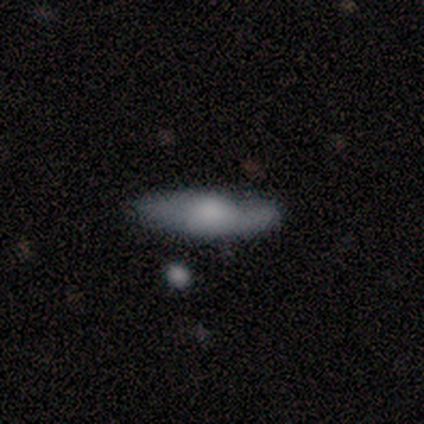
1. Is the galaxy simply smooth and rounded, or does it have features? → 60% smooth, 40% featured or disk, 0% star or artifact.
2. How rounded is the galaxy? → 67% cigar-shaped, 33% in between, 0% round.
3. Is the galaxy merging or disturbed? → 100% none, 0% minor disturbance, 0% major disturbance, 0% merger.